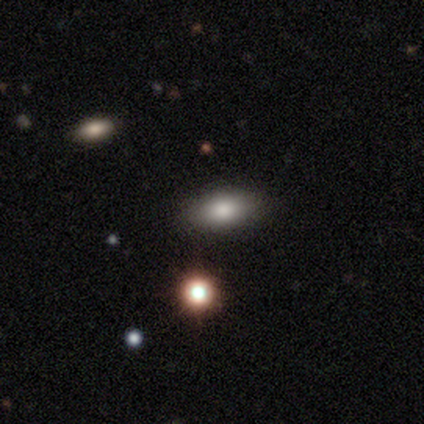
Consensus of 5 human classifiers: This is clearly a smooth galaxy (100%). How rounded: clearly in between (100%). Merging: clearly none (100%).